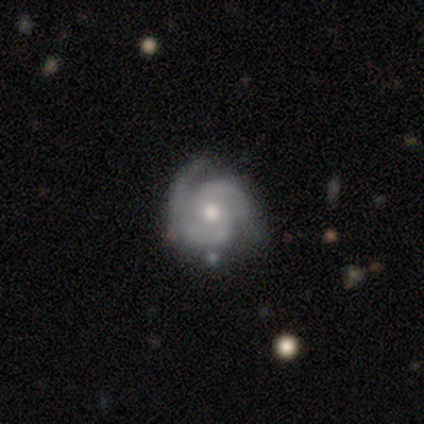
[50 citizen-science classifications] Morphology: type=featured or disk (80%); edge-on=no (95%); bar=no (71%); spiral arms=yes (97%); winding=tight (59%); arm count=2 (65%); bulge=moderate (79%); merging=none (65%).